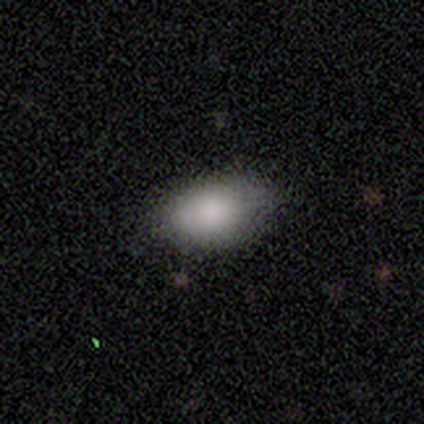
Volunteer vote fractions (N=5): A smooth galaxy with no disk features (100%) that is in between round and cigar-shaped (100%).

Vote fractions:
- Smooth or featured? smooth: 100% / featured or disk: 0% / star or artifact: 0%
- How rounded? in between: 100% / round: 0% / cigar-shaped: 0%
- Merging? none: 60% / minor disturbance: 40% / major disturbance: 0% / merger: 0%